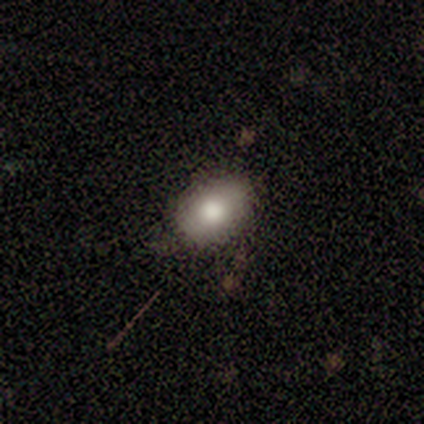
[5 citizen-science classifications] Smooth or featured? smooth (100%)
How rounded? in between (80%)
Merging? none (80%)